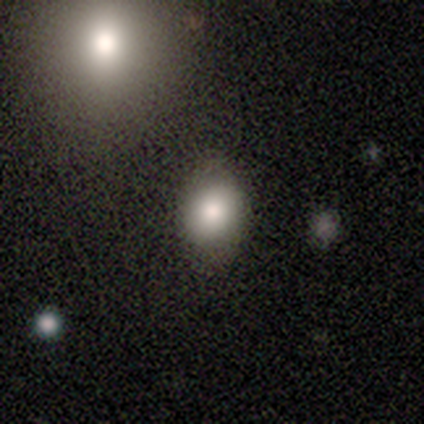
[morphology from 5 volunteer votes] Volunteers were most divided on "smooth or featured": smooth: 80%, star or artifact: 20%, featured or disk: 0%. More confident: how rounded — in between (100%); merging — none (100%).